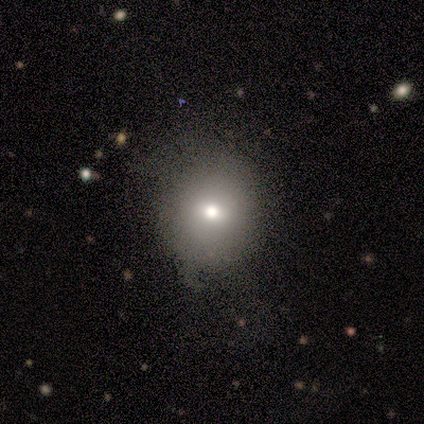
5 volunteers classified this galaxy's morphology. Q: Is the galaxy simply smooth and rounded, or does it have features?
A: smooth — 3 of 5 (60%).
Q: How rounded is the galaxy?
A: round — 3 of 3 (100%).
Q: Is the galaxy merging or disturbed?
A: none — 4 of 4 (100%).